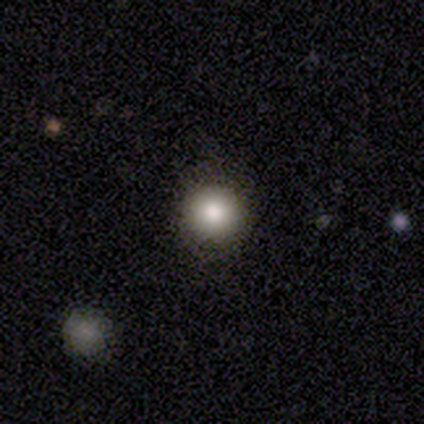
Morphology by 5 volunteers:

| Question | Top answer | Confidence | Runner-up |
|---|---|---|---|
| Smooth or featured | smooth | 80% | featured or disk (20%) |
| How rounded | round | 75% | in between (25%) |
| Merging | none | 100% | — |